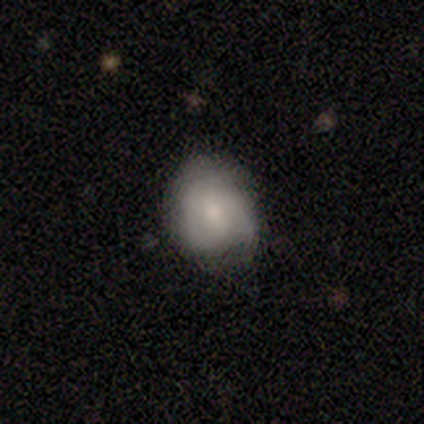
featured or disk 80%, smooth 20%, star or artifact 0%. Down the decision tree: edge-on disk — no (100%); bar — weak (75%); spiral arms — yes (100%); spiral arm count — 3 (50%); spiral winding — tight (100%); bulge size — moderate (75%); merging — none (80%).